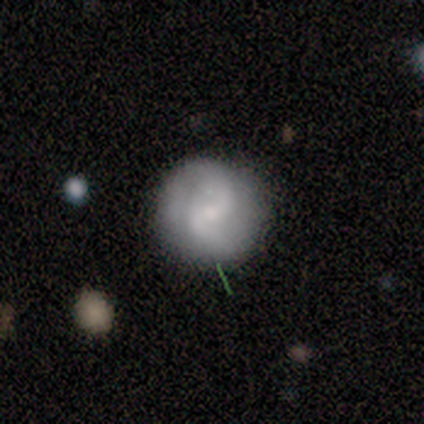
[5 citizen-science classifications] Smooth or featured?
  - featured or disk: 60% *
  - smooth: 40%
  - star or artifact: 0%
Edge-on disk?
  - no: 100% *
  - yes: 0%
Bar?
  - strong: 33% * (tied)
  - weak: 33% * (tied)
  - no: 33% * (tied)
Spiral arms?
  - yes: 100% *
  - no: 0%
Spiral winding?
  - tight: 67% *
  - medium: 33%
  - loose: 0%
Spiral arm count?
  - 2: 67% *
  - can't tell: 33%
  - 1: 0%
  - 3: 0%
  - 4: 0%
  - more than 4: 0%
Bulge size?
  - large: 33% * (tied)
  - moderate: 33% * (tied)
  - small: 33% * (tied)
  - dominant: 0%
  - none: 0%
Merging?
  - none: 40% * (tied)
  - minor disturbance: 40% * (tied)
  - major disturbance: 20%
  - merger: 0%